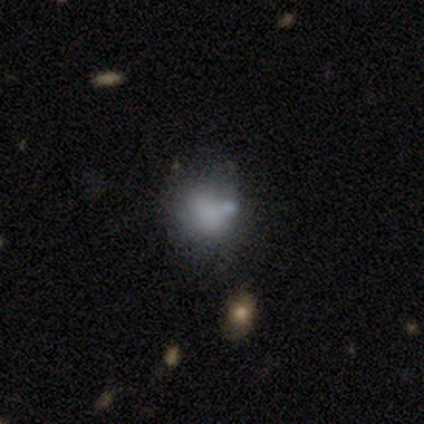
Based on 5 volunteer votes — This appears to be a featured or disk galaxy (60%) with no bar (100%), no spiral arms (100%) and a large central bulge (33%, tied with small and none). Merging: none (80%).